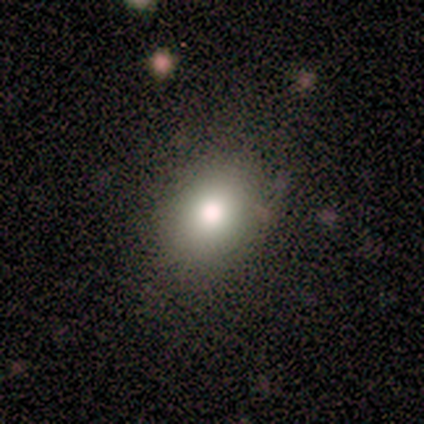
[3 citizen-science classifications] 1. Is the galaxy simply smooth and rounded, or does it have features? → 67% smooth, 33% featured or disk, 0% star or artifact.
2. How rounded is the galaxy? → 100% in between, 0% round, 0% cigar-shaped.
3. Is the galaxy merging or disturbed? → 100% none, 0% minor disturbance, 0% major disturbance, 0% merger.